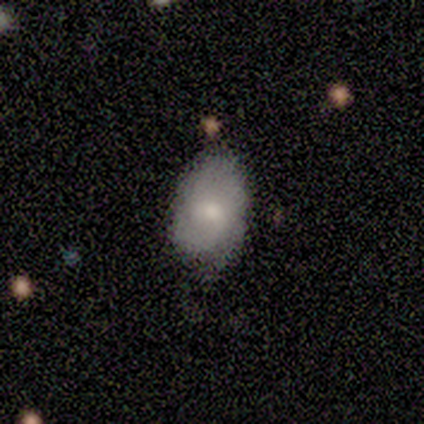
Q: Smooth or featured?
A: smooth (75%); runner-up: star or artifact (25%)
Q: How rounded?
A: in between (100%)
Q: Merging?
A: minor disturbance (100%)